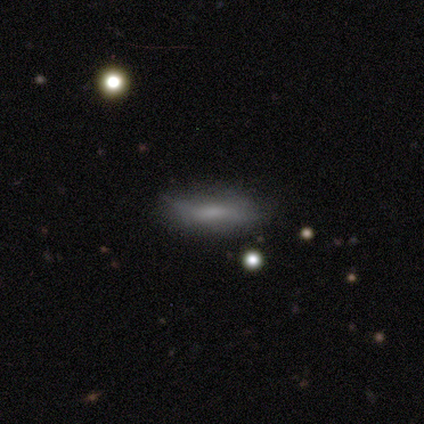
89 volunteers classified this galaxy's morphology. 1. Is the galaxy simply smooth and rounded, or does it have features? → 63% smooth, 28% featured or disk, 9% star or artifact.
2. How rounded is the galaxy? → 55% cigar-shaped, 45% in between, 0% round.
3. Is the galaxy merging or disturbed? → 68% none, 31% minor disturbance, 1% major disturbance, 0% merger.